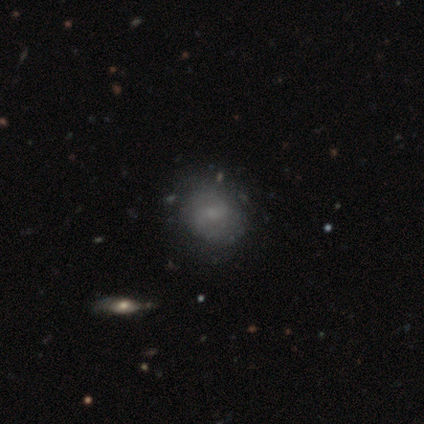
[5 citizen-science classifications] smooth-or-featured: featured or disk: 60% | smooth: 40% | star or artifact: 0%
  disk-edge-on: no: 100% | yes: 0%
    bar: no: 67% | weak: 33% | strong: 0%
    has-spiral-arms: yes: 67% | no: 33%
      spiral-winding: medium: 100% | tight: 0% | loose: 0%
      spiral-arm-count: 2: 100% | 1: 0% | 3: 0% | 4: 0% | more than 4: 0% | can't tell: 0%
    bulge-size: small: 67% | moderate: 33% | dominant: 0% | large: 0% | none: 0%
  merging: none: 100% | minor disturbance: 0% | major disturbance: 0% | merger: 0%